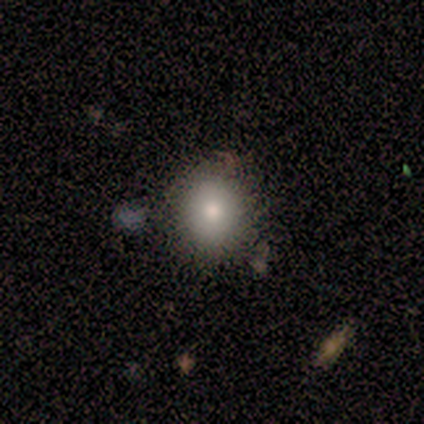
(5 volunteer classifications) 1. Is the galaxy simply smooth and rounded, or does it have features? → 80% smooth, 20% featured or disk, 0% star or artifact.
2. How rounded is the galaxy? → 75% round, 25% in between, 0% cigar-shaped.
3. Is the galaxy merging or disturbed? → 100% none, 0% minor disturbance, 0% major disturbance, 0% merger.